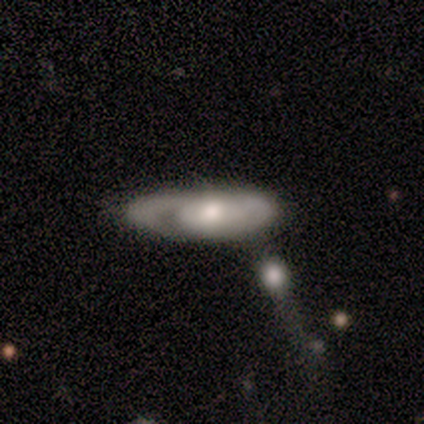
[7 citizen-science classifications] Q: Smooth or featured?
A: featured or disk (86%); runner-up: smooth (14%)
Q: Edge-on disk?
A: yes (50%); tied with: no (50%)
Q: Edge-on bulge?
A: rounded (67%); runner-up: none (33%)
Q: Merging?
A: merger (43%); runner-up: minor disturbance (29%)